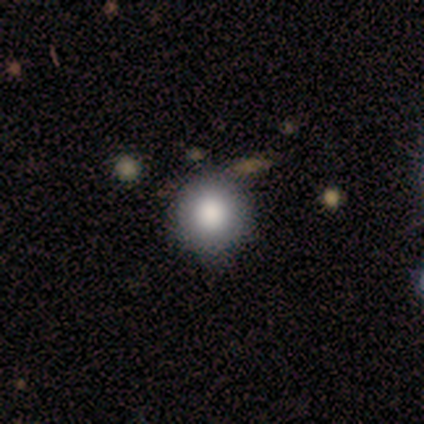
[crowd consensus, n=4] smooth_or_featured: smooth (p=1.00)
how_rounded: round (p=1.00)
merging: none (p=0.75) [alt: minor disturbance p=0.25]